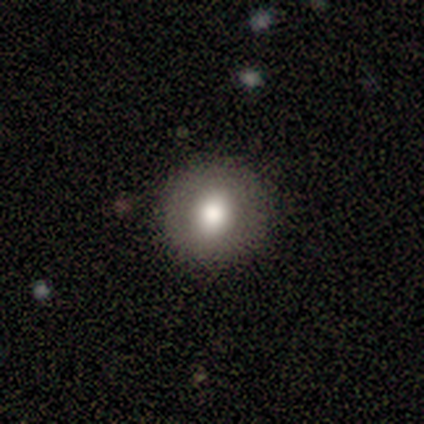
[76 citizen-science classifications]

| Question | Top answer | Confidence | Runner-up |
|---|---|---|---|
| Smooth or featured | smooth | 80% | featured or disk (11%) |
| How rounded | round | 95% | in between (5%) |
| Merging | none | 59% | minor disturbance (4%) |